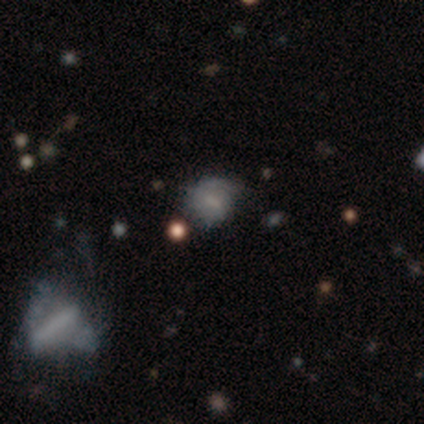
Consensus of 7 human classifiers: Overall: smooth (71%). How rounded: round (60%; in between 40%). Merging: none (71%).